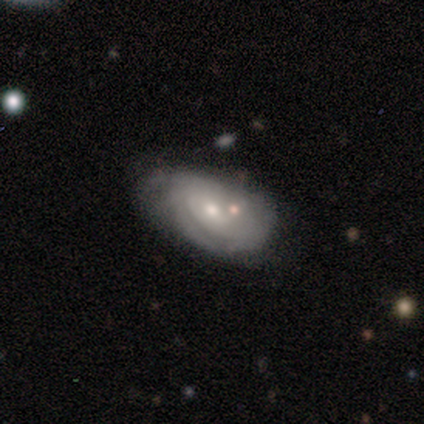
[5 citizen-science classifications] Volunteers were most divided on "spiral arms" (2-way tie): yes: 50%, no: 50%; "spiral winding" (2-way tie): tight: 50%, medium: 50%, loose: 0%; "spiral arm count" (2-way tie): 2: 50%, can't tell: 50%, 1: 0%, 3: 0%, 4: 0%, more than 4: 0%; "bulge size" (2-way tie): moderate: 50%, small: 50%, dominant: 0%, large: 0%, none: 0%. More confident: edge-on disk — no (100%); bar — no (100%); smooth or featured — featured or disk (80%); merging — none (60%).